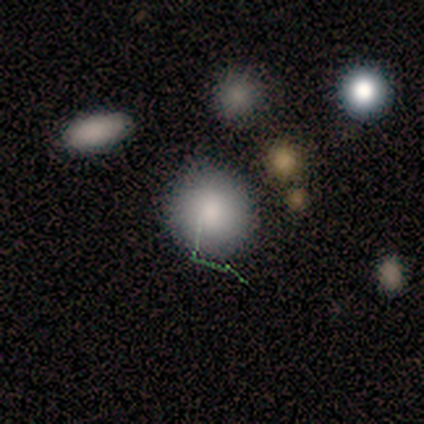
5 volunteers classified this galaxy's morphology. A smooth galaxy with no disk features (60%) that is round (67%). Merging: none (67%).